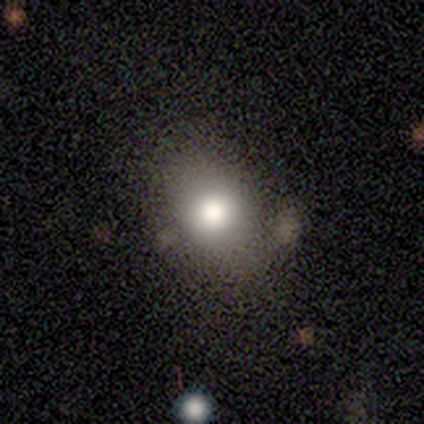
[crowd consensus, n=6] Smooth or featured? smooth (67%)
How rounded? in between (75%)
Merging? none (75%)